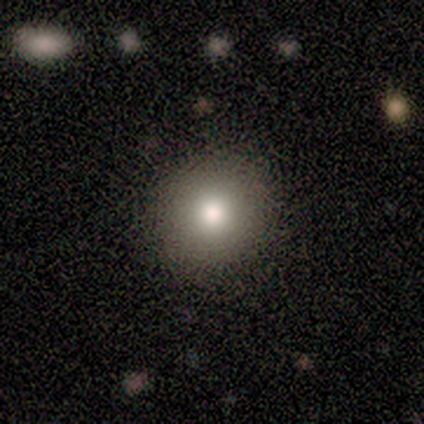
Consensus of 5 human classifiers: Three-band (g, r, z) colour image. It shows a smooth galaxy with no disk features (100%) that is round (100%). Merging: none (80%).